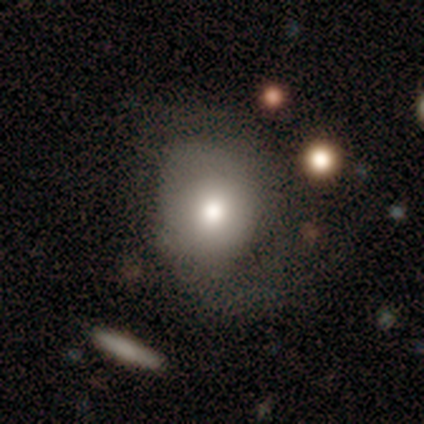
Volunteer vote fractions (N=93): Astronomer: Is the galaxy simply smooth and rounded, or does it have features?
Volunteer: smooth — 67%.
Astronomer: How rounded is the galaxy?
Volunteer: round — 71%.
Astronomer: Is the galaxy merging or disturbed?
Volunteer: none — 43% (runner-up: major disturbance, 30%).